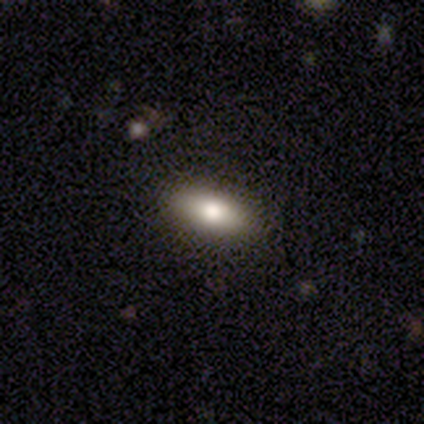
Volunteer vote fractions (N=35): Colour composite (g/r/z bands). It shows a smooth galaxy with no disk features (74%) that is in between round and cigar-shaped (65%). Merging: none (94%).